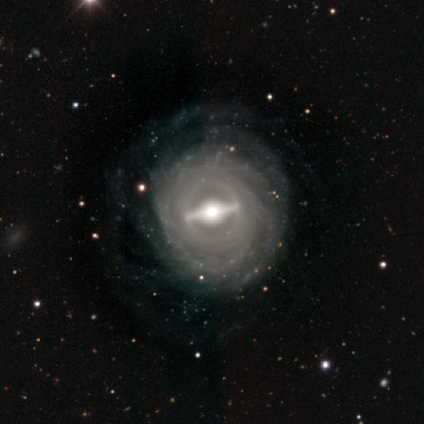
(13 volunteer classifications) Smooth or featured? featured or disk (85%)
Edge-on disk? no (82%)
Bar? strong (89%)
Spiral arms? yes (78%)
Spiral winding? tight (100%)
Spiral arm count? can't tell (86%)
Bulge size? large (78%)
Merging? none (67%)